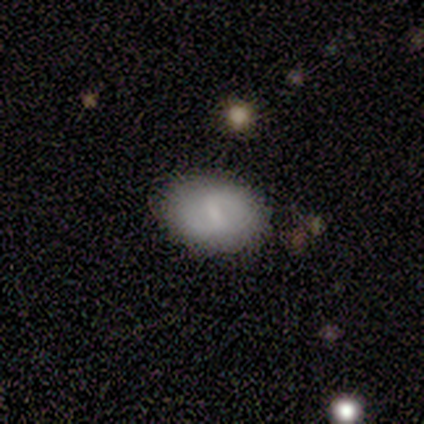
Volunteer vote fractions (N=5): smooth-or-featured: smooth: 60% | featured or disk: 40% | star or artifact: 0%
  how-rounded: in between: 67% | round: 33% | cigar-shaped: 0%
  merging: none: 80% | minor disturbance: 20% | major disturbance: 0% | merger: 0%